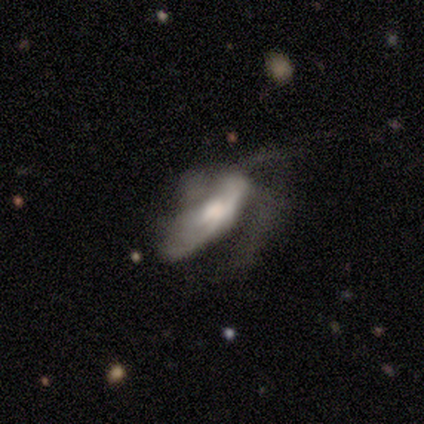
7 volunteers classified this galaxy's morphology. Overall: featured or disk (57%; smooth 29%). Edge-on disk: no (100%). Bar: weak (75%). Spiral arms: yes (100%). Spiral arm count: 3 (50%, tied with can't tell). Spiral winding: loose (50%; tight 25%). Bulge size: moderate (100%). Merging: major disturbance (50%; none 17%).